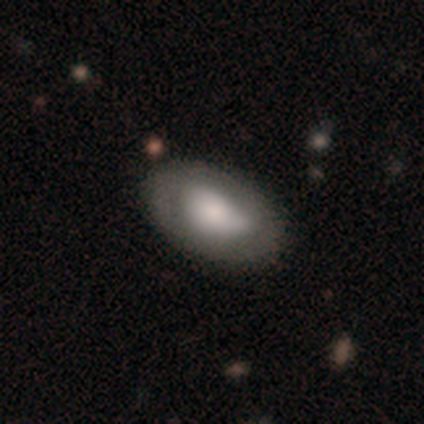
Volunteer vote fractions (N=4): This is possibly a smooth galaxy (50%, tied with featured or disk). How rounded: clearly in between (100%). Merging: likely none (75%).